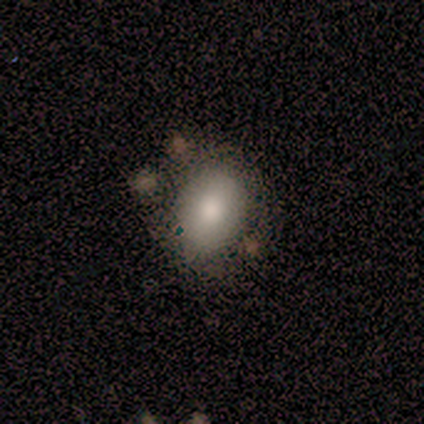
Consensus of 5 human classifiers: This appears to be a smooth galaxy with no disk features (100%) that is round (80%). Merging: none (60%).